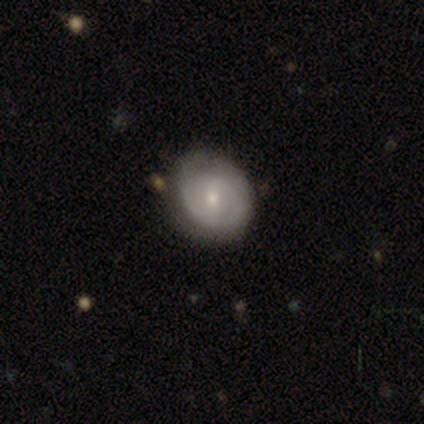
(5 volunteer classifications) Q: Smooth or featured?
A: featured or disk (80%); runner-up: smooth (20%)
Q: Edge-on disk?
A: no (100%)
Q: Bar?
A: weak (50%); tied with: no (50%)
Q: Spiral arms?
A: yes (100%)
Q: Spiral winding?
A: tight (75%); runner-up: loose (25%)
Q: Spiral arm count?
A: 2 (75%); runner-up: can't tell (25%)
Q: Bulge size?
A: moderate (100%)
Q: Merging?
A: none (60%); runner-up: minor disturbance (40%)